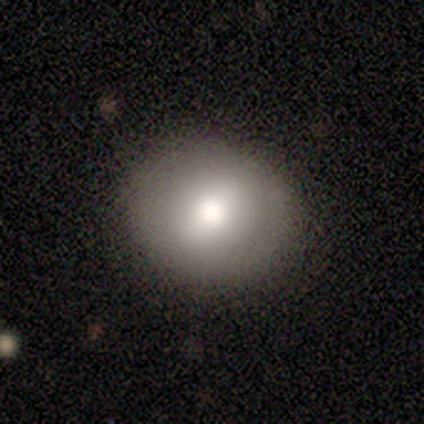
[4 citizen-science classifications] This is likely a smooth galaxy (75%). How rounded: likely round (67%). Merging: likely none (67%).